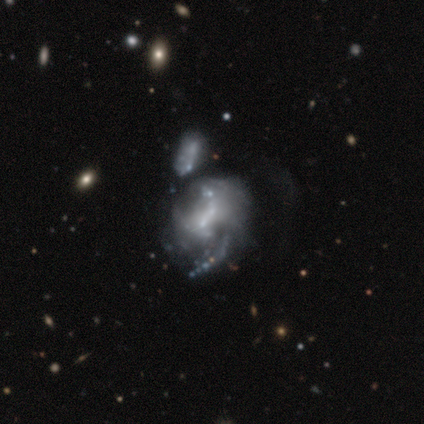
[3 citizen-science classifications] Morphology: type=featured or disk (100%); edge-on=no (100%); bar=weak (67%); spiral arms=yes (67%); winding=medium (50%, tied with loose); arm count=1 (50%, tied with 2); bulge=small (67%); merging=minor disturbance (33%, tied with major disturbance and merger).